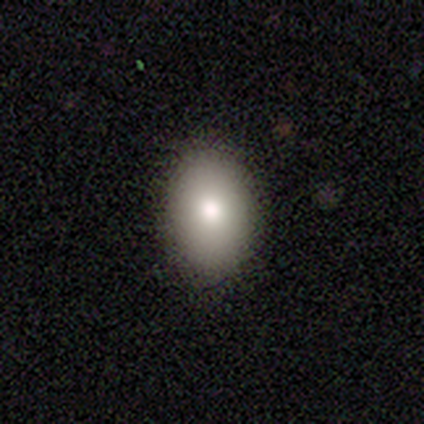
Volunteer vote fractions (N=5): Smooth or featured? smooth (80%)
How rounded? in between (75%)
Merging? none (80%)